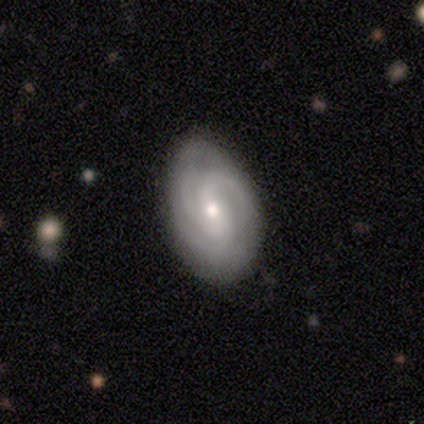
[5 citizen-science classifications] featured or disk 100%, smooth 0%, star or artifact 0%. Down the decision tree: edge-on disk — no (100%); bar — weak (60%); spiral arms — yes (100%); spiral arm count — can't tell (40%); spiral winding — tight (60%); bulge size — small (80%); merging — none (100%).